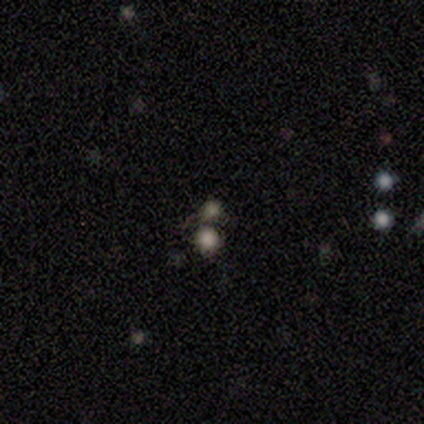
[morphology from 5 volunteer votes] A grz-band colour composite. It shows a smooth galaxy with no disk features (60%) that is round (100%). Merging: none (67%).